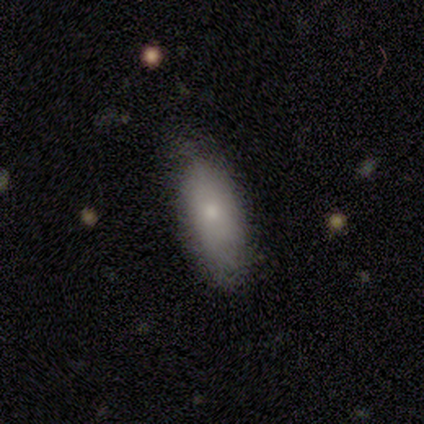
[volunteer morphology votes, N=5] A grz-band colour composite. It shows a smooth galaxy with no disk features (80%) that is in between round and cigar-shaped (100%). Merging: none (60%).